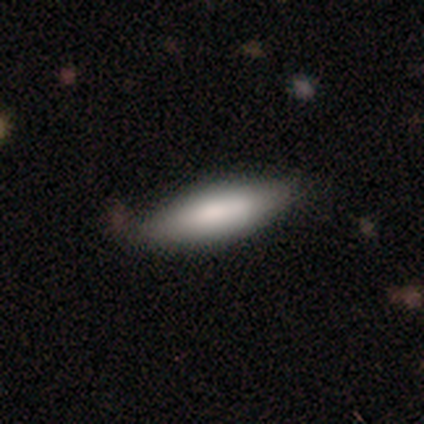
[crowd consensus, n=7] A smooth galaxy with no disk features (71%) that is in between round and cigar-shaped (100%).

Vote fractions:
- Smooth or featured? smooth: 71% / featured or disk: 29% / star or artifact: 0%
- How rounded? in between: 100% / round: 0% / cigar-shaped: 0%
- Merging? none: 86% / minor disturbance: 14% / major disturbance: 0% / merger: 0%